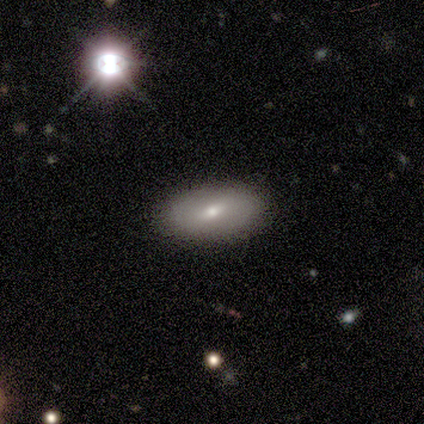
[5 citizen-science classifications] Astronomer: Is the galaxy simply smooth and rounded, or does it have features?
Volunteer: smooth — 80%.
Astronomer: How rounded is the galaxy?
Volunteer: in between — 75%.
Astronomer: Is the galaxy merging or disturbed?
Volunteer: none — 100%.